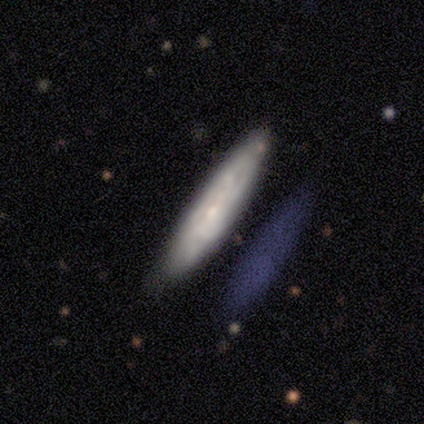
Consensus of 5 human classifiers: smooth-or-featured: smooth: 60% | featured or disk: 40% | star or artifact: 0%
  how-rounded: cigar-shaped: 100% | round: 0% | in between: 0%
  merging: none: 40% (tied) | minor disturbance: 40% (tied) | major disturbance: 20% | merger: 0%